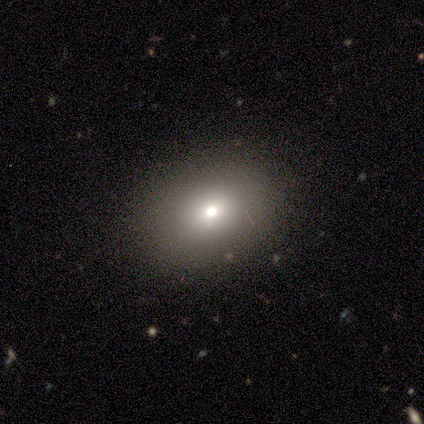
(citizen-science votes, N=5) Morphology: type=smooth (80%); roundness=round (75%); merging=none (75%).